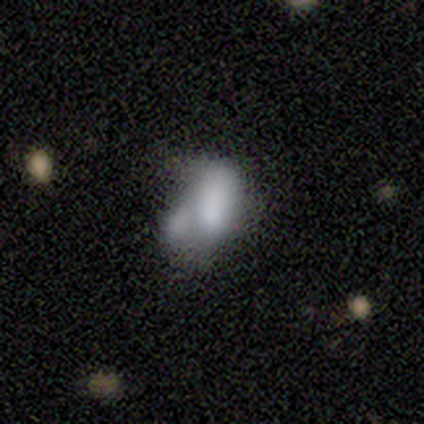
Overall: smooth (50%; featured or disk 25%). How rounded: in between (100%). Merging: merger (67%; major disturbance 33%).